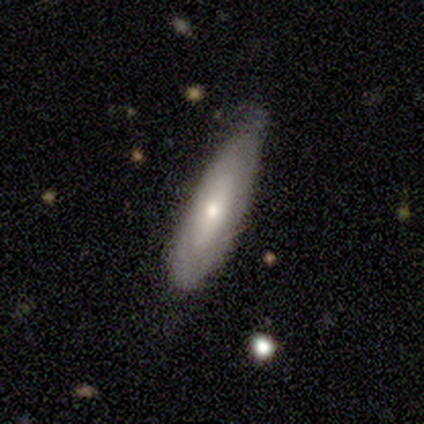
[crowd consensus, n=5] A featured or disk galaxy (60%) with a weak bar (100%), no spiral arms (67%) and a moderate central bulge (67%). Merging: minor disturbance (80%).